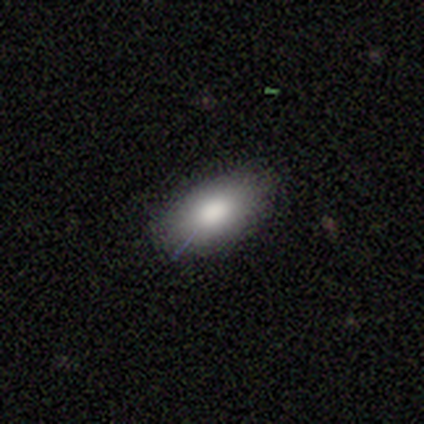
Overall: smooth (100%). How rounded: in between (100%). Merging: none (100%).